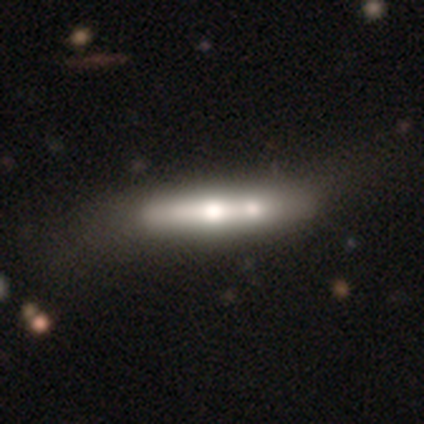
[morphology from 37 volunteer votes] A featured or disk galaxy (65%) viewed edge-on (75%) with a rounded central bulge (94%).

Vote fractions:
- Smooth or featured? featured or disk: 65% / smooth: 35% / star or artifact: 0%
- Edge-on disk? yes: 75% / no: 25%
- Edge-on bulge? rounded: 94% / boxy: 6% / none: 0%
- Merging? merger: 54% / none: 11% / minor disturbance: 5% / major disturbance: 5%